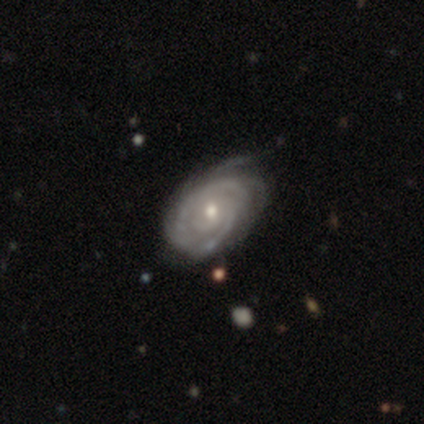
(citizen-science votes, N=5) Morphology: type=featured or disk (80%); edge-on=no (100%); bar=no (75%); spiral arms=yes (100%); winding=tight (100%); arm count=can't tell (75%); bulge=moderate (50%, tied with small); merging=none (50%, tied with minor disturbance).